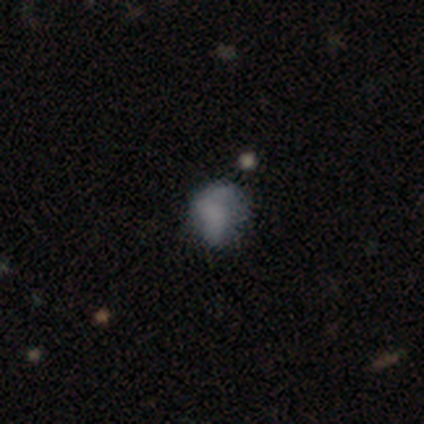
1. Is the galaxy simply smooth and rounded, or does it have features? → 75% featured or disk, 25% star or artifact, 0% smooth.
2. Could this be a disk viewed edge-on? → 100% no, 0% yes.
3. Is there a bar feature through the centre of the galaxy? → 100% no, 0% strong, 0% weak.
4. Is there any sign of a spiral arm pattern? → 67% no, 33% yes.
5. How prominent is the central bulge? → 33% large (tied), 33% moderate (tied), 33% none (tied), 0% dominant, 0% small.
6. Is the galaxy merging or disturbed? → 67% none, 33% major disturbance, 0% minor disturbance, 0% merger.